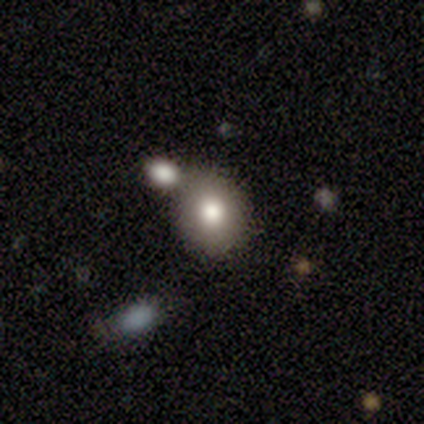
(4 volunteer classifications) smooth 100%, featured or disk 0%, star or artifact 0%. Down the decision tree: how rounded — round (50%, tied with in between); merging — none (75%).